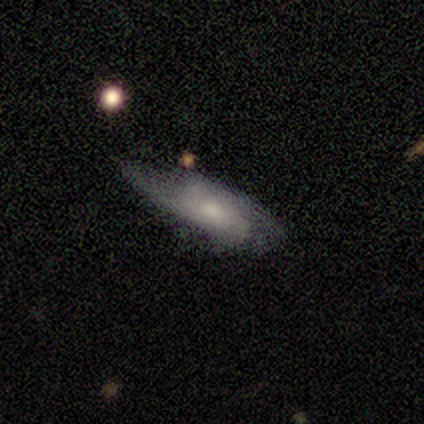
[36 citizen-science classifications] This appears to be a featured or disk galaxy (50%) with no bar (73%), 2 (86%) medium (57%) spiral arms (64%) and a moderate central bulge (55%). Merging: none (38%, tied with minor disturbance).